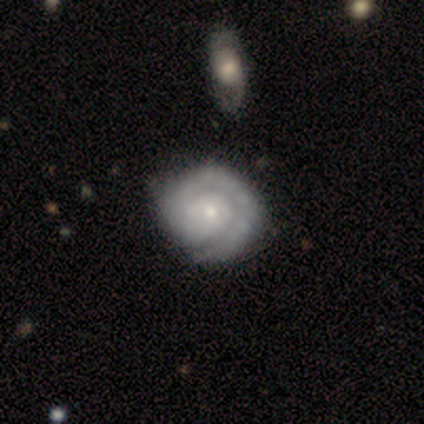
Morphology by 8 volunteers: featured or disk 75%, smooth 12%, star or artifact 12%. Down the decision tree: edge-on disk — no (100%); bar — no (83%); spiral arms — yes (100%); spiral arm count — 1 (50%); spiral winding — tight (67%); bulge size — small (67%); merging — none (86%).